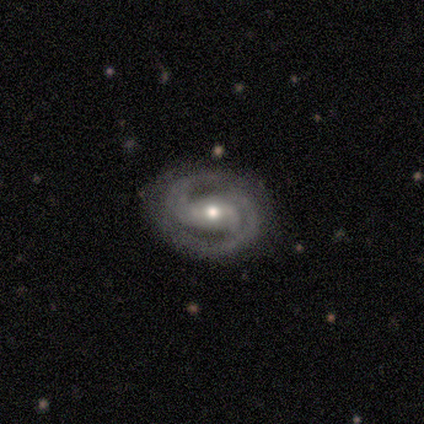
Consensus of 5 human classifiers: Volunteers were most divided on "bar": weak: 60%, strong: 40%, no: 0%. More confident: smooth or featured — featured or disk (100%); edge-on disk — no (100%); spiral arms — yes (100%); spiral arm count — 2 (100%); merging — none (80%); spiral winding — medium (60%); bulge size — small (60%).